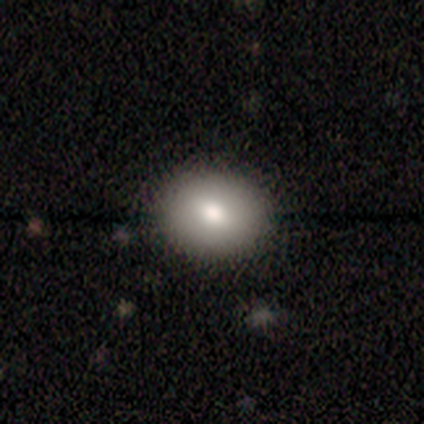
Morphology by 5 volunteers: Smooth or featured? smooth (100%)
How rounded? round (60%)
Merging? none (100%)